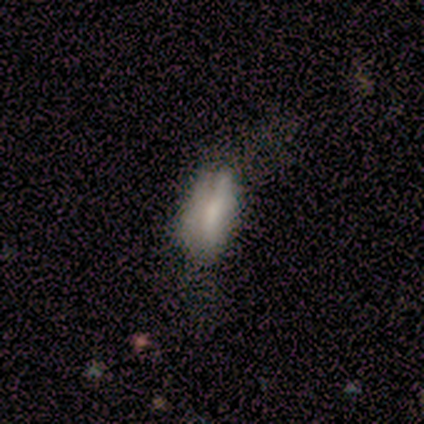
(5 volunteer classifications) A smooth galaxy with no disk features (60%) that is cigar-shaped (67%). Merging: none (40%, tied with major disturbance).